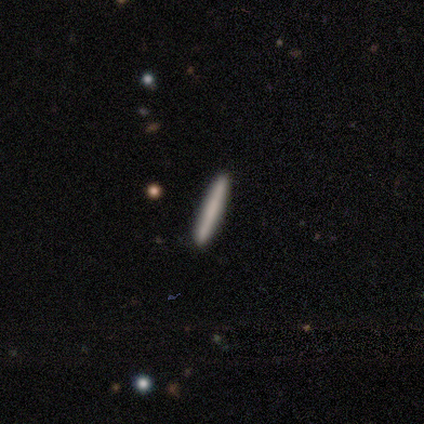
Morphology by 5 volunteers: smooth_or_featured: smooth (p=0.80) [alt: featured or disk p=0.20]
how_rounded: cigar-shaped (p=1.00)
merging: none (p=1.00)